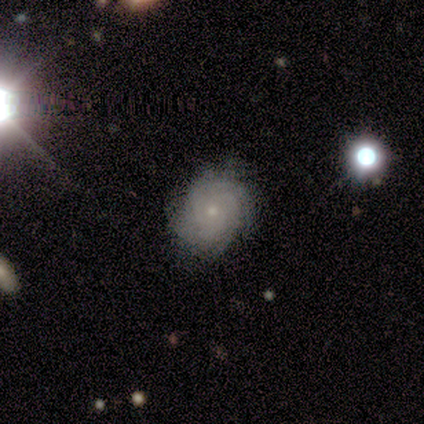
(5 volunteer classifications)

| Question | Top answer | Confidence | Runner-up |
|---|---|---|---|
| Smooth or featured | featured or disk | 80% | star or artifact (20%) |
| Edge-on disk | no | 100% | — |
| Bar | no | 75% | weak (25%) |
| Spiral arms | yes | 100% | — |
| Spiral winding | tight | 50% | tied: medium (50%) |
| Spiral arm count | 2 | 25% | tied: 3 (25%), 4 (25%), can't tell (25%) |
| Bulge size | small | 75% | moderate (25%) |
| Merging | none | 75% | minor disturbance (25%) |